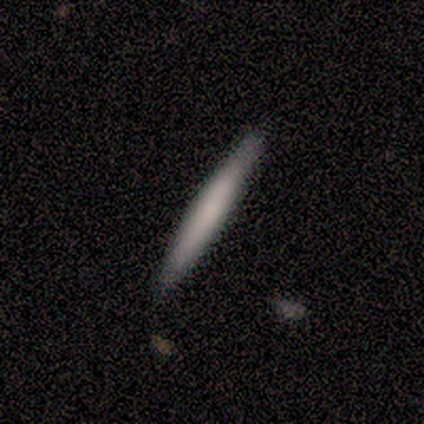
Morphology: type=smooth (83%); roundness=cigar-shaped (100%); merging=none (100%).